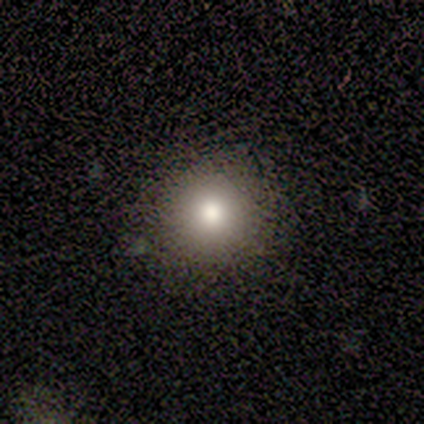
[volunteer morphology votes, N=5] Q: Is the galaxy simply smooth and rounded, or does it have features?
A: smooth — 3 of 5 (60%).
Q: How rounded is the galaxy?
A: round — 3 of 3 (100%).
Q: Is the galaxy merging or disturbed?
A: none — 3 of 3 (100%).